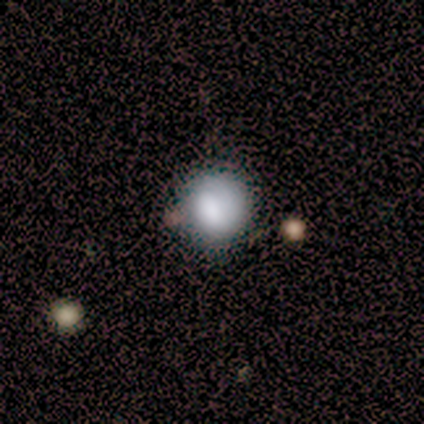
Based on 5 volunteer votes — Morphology: type=smooth (80%); roundness=round (75%); merging=none (75%).